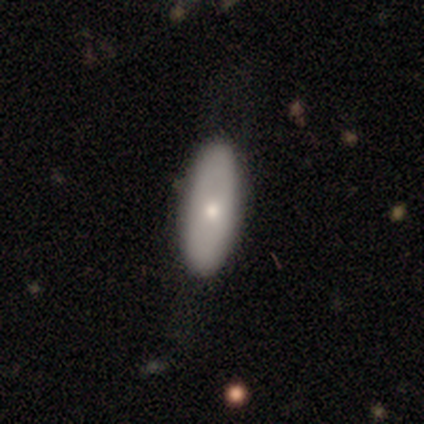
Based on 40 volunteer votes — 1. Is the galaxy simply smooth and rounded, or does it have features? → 68% smooth, 30% featured or disk, 2% star or artifact.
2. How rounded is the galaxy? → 78% in between, 22% cigar-shaped, 0% round.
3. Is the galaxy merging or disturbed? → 64% none, 21% minor disturbance, 13% major disturbance, 3% merger.